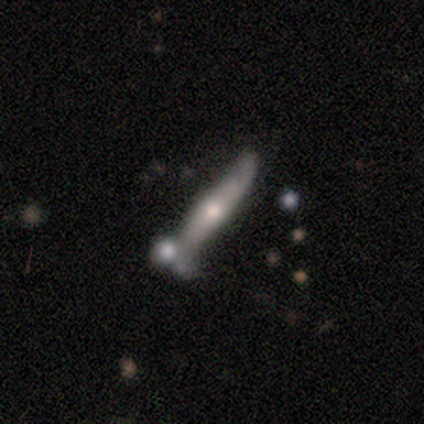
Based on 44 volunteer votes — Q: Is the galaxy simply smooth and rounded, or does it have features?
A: featured or disk — 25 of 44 (57%).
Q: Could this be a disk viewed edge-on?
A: yes — 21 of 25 (84%).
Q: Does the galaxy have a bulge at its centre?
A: rounded — 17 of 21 (81%).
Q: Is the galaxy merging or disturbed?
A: none — 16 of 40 (40%).